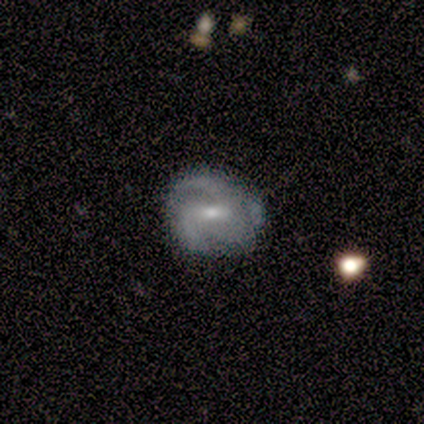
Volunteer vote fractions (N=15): A featured or disk galaxy (80%) with a weak bar (75%), 2 (58%) medium (50%) spiral arms (100%) and a moderate central bulge (67%). Merging: none (86%).